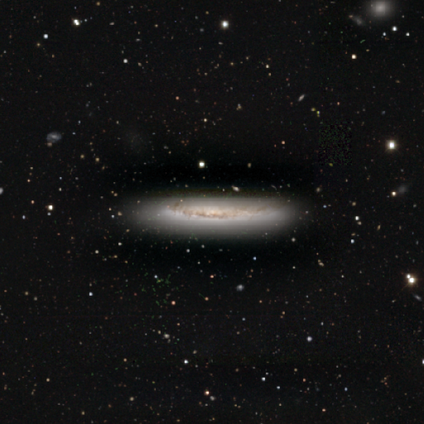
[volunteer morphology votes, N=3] Smooth or featured?
  - smooth: 67% *
  - featured or disk: 33%
  - star or artifact: 0%
How rounded?
  - in between: 50% * (tied)
  - cigar-shaped: 50% * (tied)
  - round: 0%
Merging?
  - none: 67% *
  - minor disturbance: 33%
  - major disturbance: 0%
  - merger: 0%